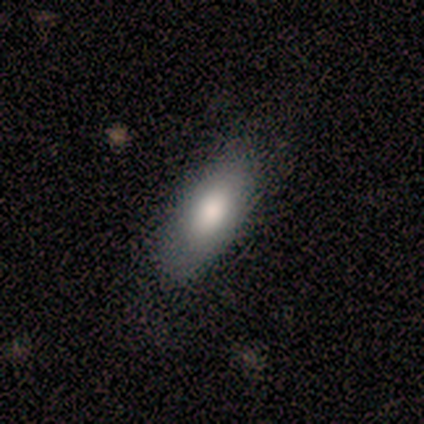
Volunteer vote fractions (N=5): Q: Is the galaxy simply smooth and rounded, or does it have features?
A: smooth — 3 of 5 (60%).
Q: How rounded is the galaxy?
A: in between — 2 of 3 (67%).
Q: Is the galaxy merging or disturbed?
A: none — 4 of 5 (80%).